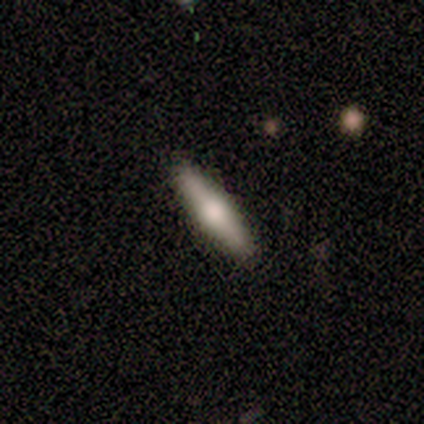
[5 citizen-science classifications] smooth-or-featured: smooth: 80% | featured or disk: 20% | star or artifact: 0%
  how-rounded: cigar-shaped: 75% | in between: 25% | round: 0%
  merging: none: 80% | minor disturbance: 20% | major disturbance: 0% | merger: 0%